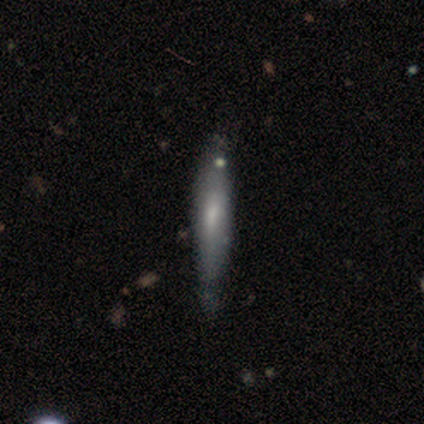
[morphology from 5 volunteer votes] Smooth or featured: featured or disk — 60% (smooth — 40%)
Edge-on disk: yes — 67% (no — 33%)
Edge-on bulge: boxy — 50% (tied with rounded — 50%)
Merging: none — 40% (tied with minor disturbance — 40%)